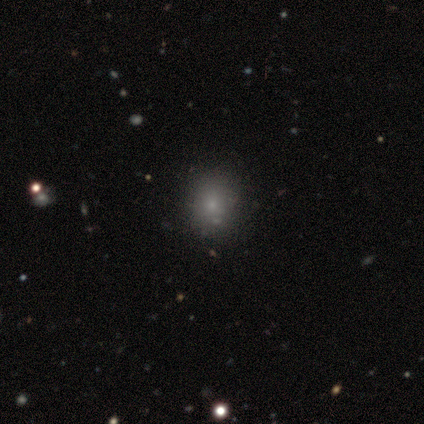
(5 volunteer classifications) smooth_or_featured: smooth (p=1.00)
how_rounded: round (p=1.00)
merging: none (p=1.00)